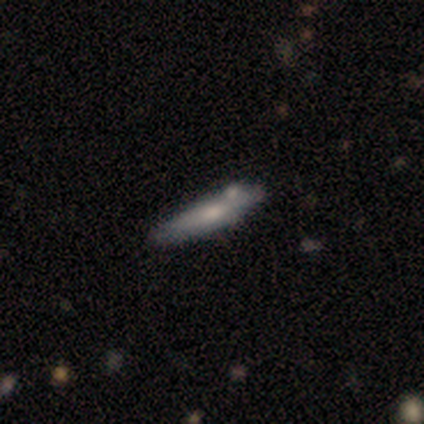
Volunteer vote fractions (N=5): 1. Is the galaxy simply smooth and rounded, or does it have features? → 60% smooth, 20% featured or disk, 20% star or artifact.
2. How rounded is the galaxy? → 100% cigar-shaped, 0% round, 0% in between.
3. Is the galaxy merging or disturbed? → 50% none (tied), 50% minor disturbance (tied), 0% major disturbance, 0% merger.